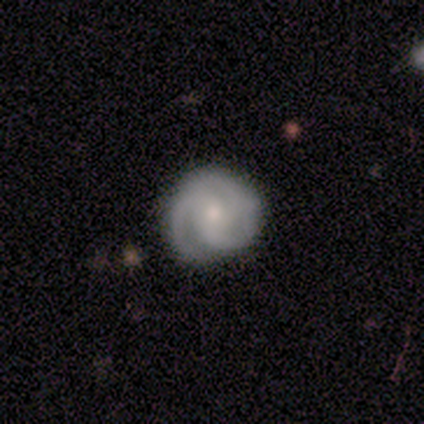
featured or disk 84%, smooth 9%, star or artifact 7%. Down the decision tree: edge-on disk — no (100%); bar — no (76%); spiral arms — yes (97%); spiral arm count — 3 (72%); spiral winding — tight (61%); bulge size — moderate (49%); merging — none (80%).